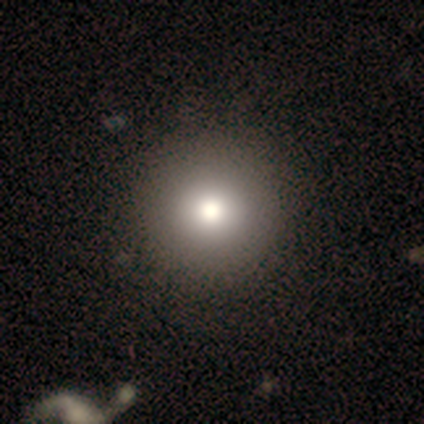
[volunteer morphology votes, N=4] Q: Smooth or featured?
A: smooth (50%); tied with: star or artifact (50%)
Q: How rounded?
A: round (100%)
Q: Merging?
A: none (100%)